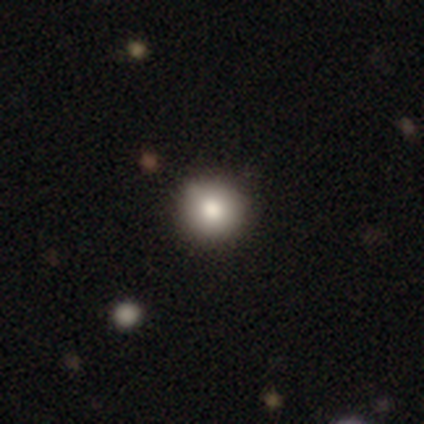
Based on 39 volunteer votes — Morphology: type=smooth (85%); roundness=round (91%); merging=none (63%).